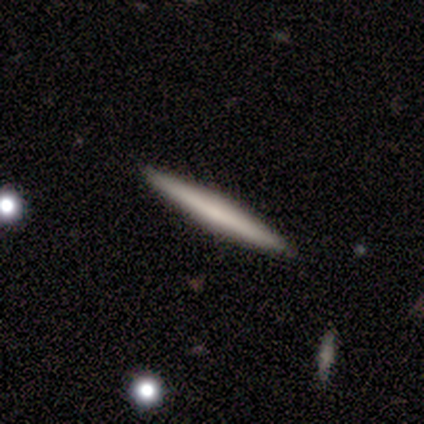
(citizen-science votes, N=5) This appears to be a featured or disk galaxy (80%) viewed edge-on (100%) with no central bulge (75%). Merging: none (100%).